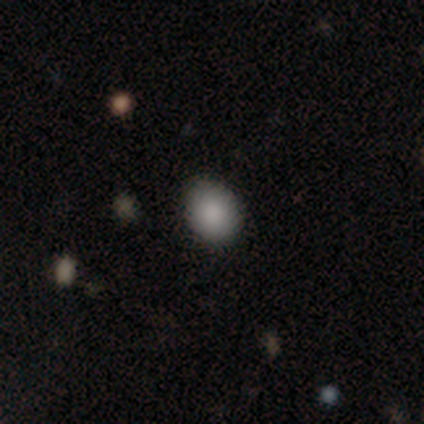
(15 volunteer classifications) smooth_or_featured: smooth (p=0.87) [alt: featured or disk p=0.07]
how_rounded: in between (p=0.54) [alt: round p=0.46]
merging: none (p=0.79) [alt: minor disturbance p=0.21]